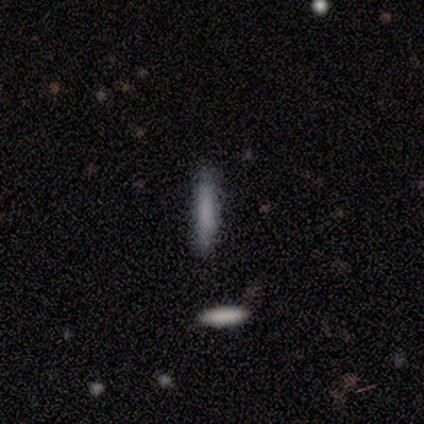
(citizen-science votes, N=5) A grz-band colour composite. It shows a smooth galaxy with no disk features (80%) that is cigar-shaped (100%). Merging: none (100%).